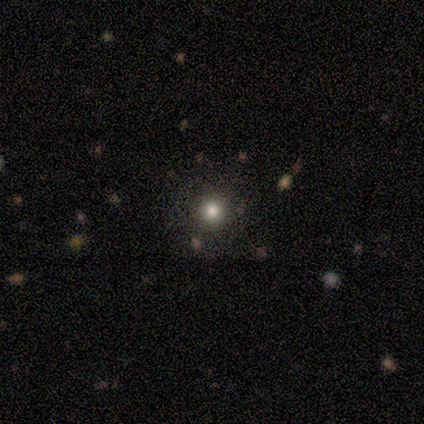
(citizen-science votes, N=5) Morphology: type=smooth (60%); roundness=round (100%); merging=none (100%).